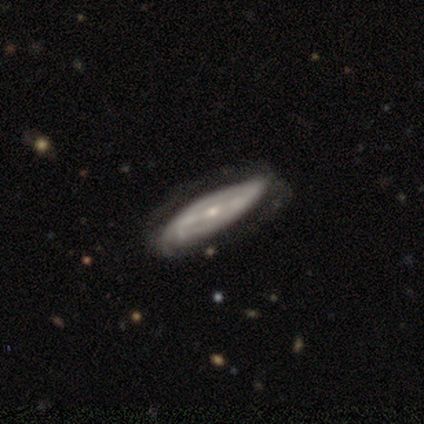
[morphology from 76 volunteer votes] type=featured or disk (88%); edge-on=no (79%); bar=weak (47%); spiral arms=yes (87%); winding=tight (41%); arm count=can't tell (48%); bulge=small (79%); merging=none (28%).